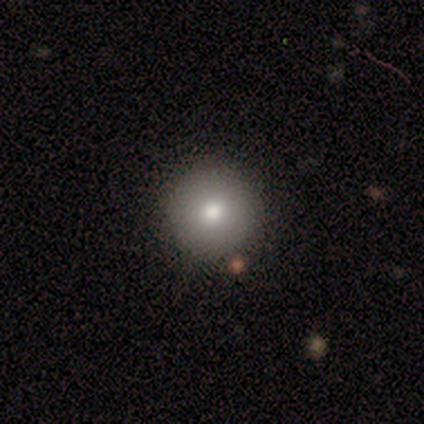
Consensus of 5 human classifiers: This is clearly a smooth galaxy (80%). How rounded: clearly round (100%). Merging: clearly none (100%).